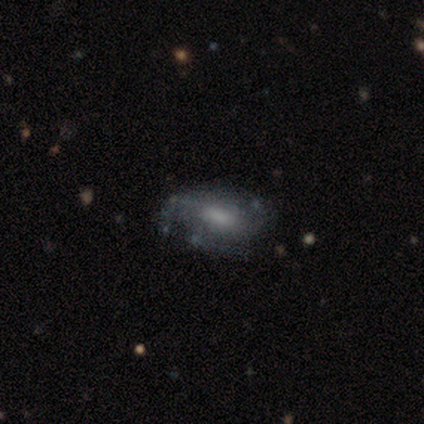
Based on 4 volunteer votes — Q: Smooth or featured?
A: featured or disk (75%); runner-up: smooth (25%)
Q: Edge-on disk?
A: no (100%)
Q: Bar?
A: no (67%); runner-up: weak (33%)
Q: Spiral arms?
A: yes (67%); runner-up: no (33%)
Q: Spiral winding?
A: medium (50%); tied with: loose (50%)
Q: Spiral arm count?
A: 3 (50%); tied with: can't tell (50%)
Q: Bulge size?
A: moderate (67%); runner-up: small (33%)
Q: Merging?
A: none (50%); tied with: minor disturbance (50%)